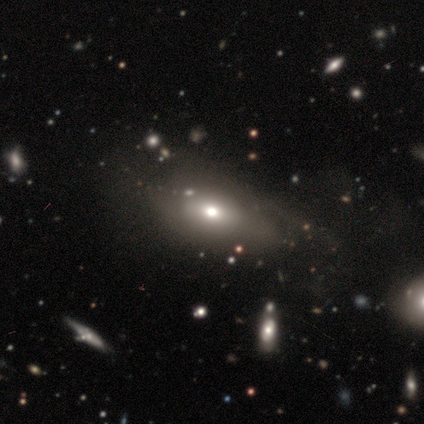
smooth_or_featured: smooth (p=0.67) [alt: featured or disk p=0.23]
how_rounded: in between (p=0.73) [alt: round p=0.15]
merging: none (p=0.60) [alt: major disturbance p=0.20]